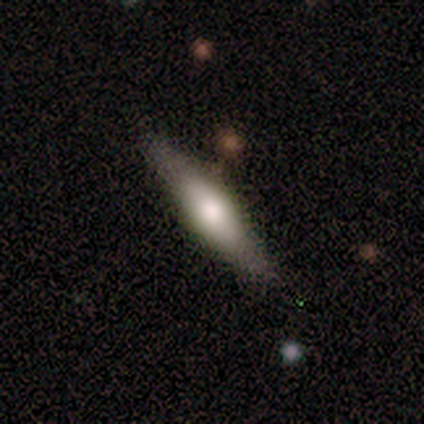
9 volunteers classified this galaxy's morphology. Volunteers were most divided on "smooth or featured": smooth: 67%, featured or disk: 33%, star or artifact: 0%. More confident: how rounded — cigar-shaped (83%); merging — none (78%).